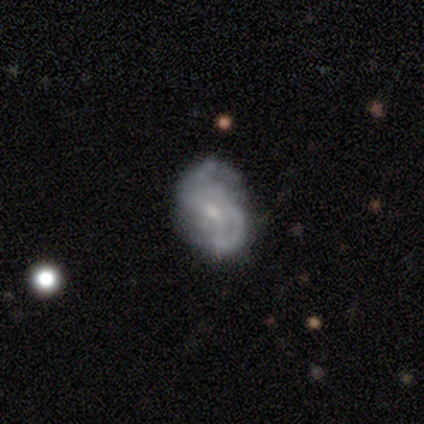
Smooth or featured?
  - featured or disk: 87% *
  - smooth: 10%
  - star or artifact: 3%
Edge-on disk?
  - no: 97% *
  - yes: 3%
Bar?
  - weak: 48% *
  - no: 42%
  - strong: 9%
Spiral arms?
  - yes: 91% *
  - no: 9%
Spiral winding?
  - medium: 50% *
  - loose: 40%
  - tight: 10%
Spiral arm count?
  - 2: 60% *
  - can't tell: 20%
  - 1: 7%
  - 3: 7%
  - 4: 7%
  - more than 4: 0%
Bulge size?
  - small: 70% *
  - moderate: 30%
  - dominant: 0%
  - large: 0%
  - none: 0%
Merging?
  - none: 68% *
  - minor disturbance: 21%
  - major disturbance: 11%
  - merger: 0%